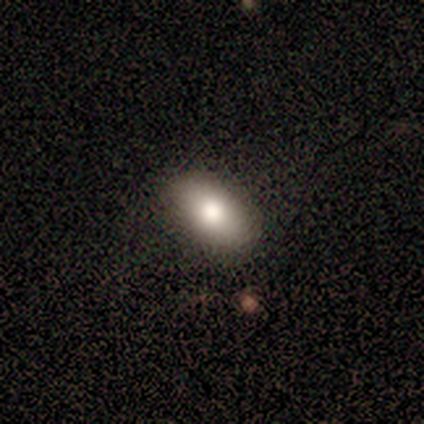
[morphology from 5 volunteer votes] Volunteers were most divided on "smooth or featured": smooth: 60%, featured or disk: 40%, star or artifact: 0%. More confident: merging — none (100%); how rounded — in between (67%).